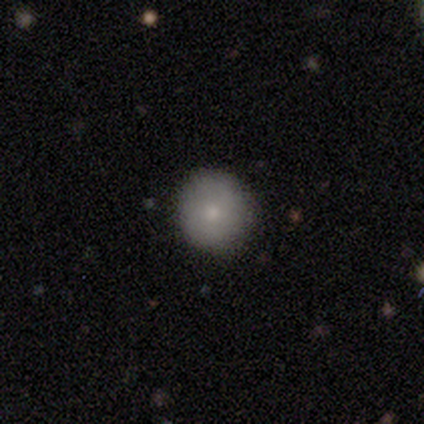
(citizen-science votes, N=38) smooth_or_featured: smooth (p=0.84) [alt: featured or disk p=0.08]
how_rounded: round (p=0.91) [alt: in between p=0.09]
merging: none (p=0.91) [alt: minor disturbance p=0.06]